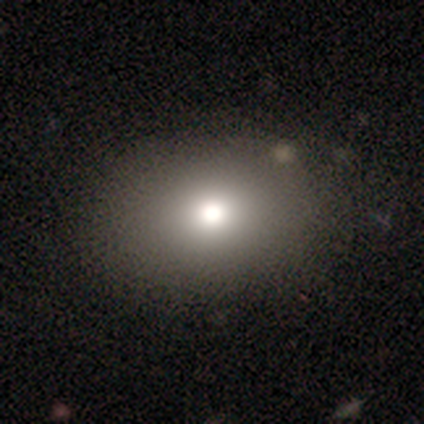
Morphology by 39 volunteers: Volunteers were most divided on "how rounded": in between: 68%, round: 32%, cigar-shaped: 0%. More confident: merging — none (90%); smooth or featured — smooth (72%).